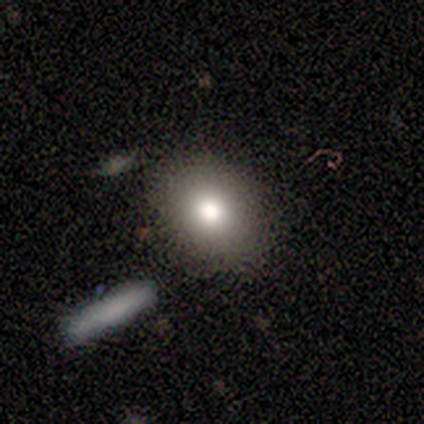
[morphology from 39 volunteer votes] smooth 77%, featured or disk 13%, star or artifact 10%. Down the decision tree: how rounded — in between (63%); merging — none (83%).